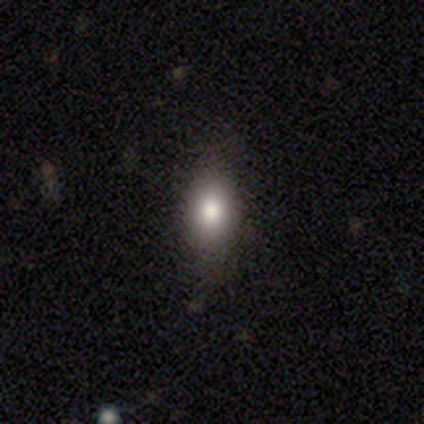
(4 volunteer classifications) Morphology: type=smooth (100%); roundness=cigar-shaped (50%); merging=none (75%).